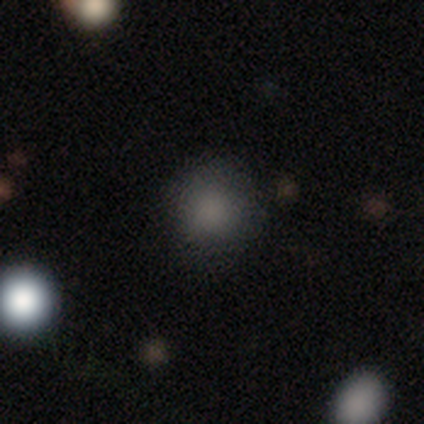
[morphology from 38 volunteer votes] smooth_or_featured: smooth (p=0.87) [alt: star or artifact p=0.11]
how_rounded: round (p=0.88) [alt: in between p=0.12]
merging: none (p=0.82) [alt: minor disturbance p=0.15]